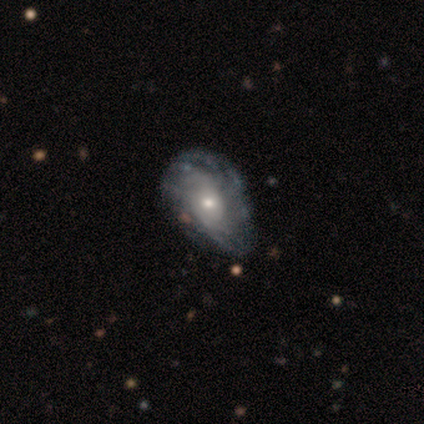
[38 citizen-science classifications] A featured or disk galaxy (89%) with no bar (88%), medium (45%) spiral arms (85%) and a moderate central bulge (53%).

Vote fractions:
- Smooth or featured? featured or disk: 89% / smooth: 5% / star or artifact: 5%
- Edge-on disk? no: 100% / yes: 0%
- Bar? no: 88% / weak: 9% / strong: 3%
- Spiral arms? yes: 85% / no: 15%
- Spiral winding? medium: 45% / tight: 41% / loose: 14%
- Spiral arm count? can't tell: 76% / more than 4: 14% / 2: 7% / 3: 3% / 1: 0% / 4: 0%
- Bulge size? moderate: 53% / small: 47% / dominant: 0% / large: 0% / none: 0%
- Merging? none: 39% / minor disturbance: 25% / major disturbance: 11% / merger: 3%